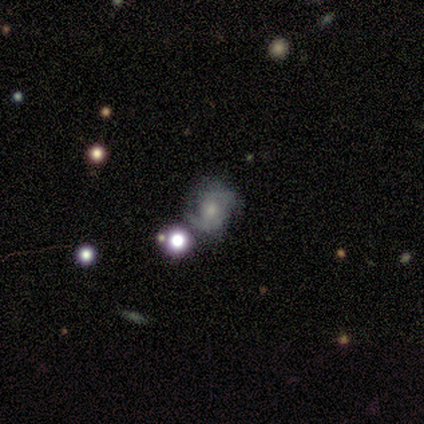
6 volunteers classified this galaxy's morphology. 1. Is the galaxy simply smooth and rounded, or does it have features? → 83% featured or disk, 17% smooth, 0% star or artifact.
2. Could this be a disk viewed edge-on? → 100% no, 0% yes.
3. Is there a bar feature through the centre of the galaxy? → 60% no, 40% weak, 0% strong.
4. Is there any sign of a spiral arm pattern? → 100% yes, 0% no.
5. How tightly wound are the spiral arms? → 60% medium, 40% tight, 0% loose.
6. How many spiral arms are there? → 60% 2, 20% 3, 20% can't tell, 0% 1, 0% 4, 0% more than 4.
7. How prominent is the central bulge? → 80% moderate, 20% none, 0% dominant, 0% large, 0% small.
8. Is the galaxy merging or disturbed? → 67% none, 33% minor disturbance, 0% major disturbance, 0% merger.